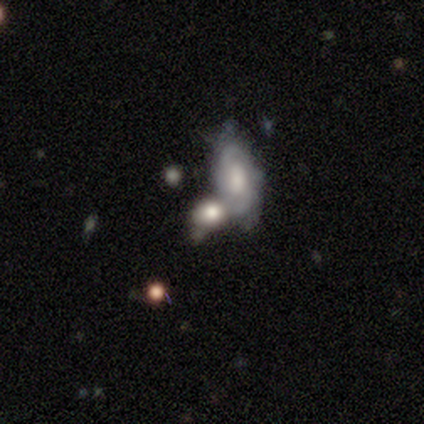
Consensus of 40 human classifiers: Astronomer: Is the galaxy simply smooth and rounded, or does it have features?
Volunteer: featured or disk — 62%.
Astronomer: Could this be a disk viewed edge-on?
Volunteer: no — 84%.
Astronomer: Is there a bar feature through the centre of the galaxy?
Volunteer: weak — 57% (runner-up: no, 43%).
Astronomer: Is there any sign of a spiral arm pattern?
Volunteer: yes — 71%.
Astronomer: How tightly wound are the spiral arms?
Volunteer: tight — 60%.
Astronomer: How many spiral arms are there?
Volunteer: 2 — 67%.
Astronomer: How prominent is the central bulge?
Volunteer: moderate — 38% (runner-up: large, 33%).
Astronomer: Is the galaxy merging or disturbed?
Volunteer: merger — 51% (runner-up: none, 31%).